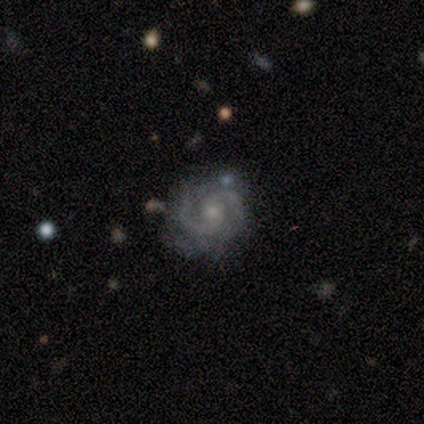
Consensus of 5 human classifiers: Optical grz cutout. It shows a featured or disk galaxy (100%) with a weak bar (60%), 2 (100%) medium (80%) spiral arms (100%) and a small central bulge (60%). Merging: none (60%).